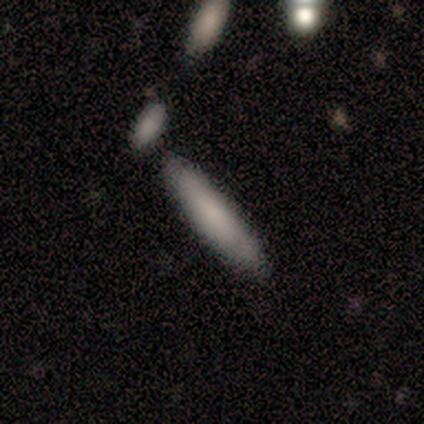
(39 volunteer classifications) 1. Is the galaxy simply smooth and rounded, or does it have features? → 69% smooth, 28% featured or disk, 3% star or artifact.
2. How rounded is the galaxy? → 85% cigar-shaped, 15% in between, 0% round.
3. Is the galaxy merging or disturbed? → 63% none, 18% minor disturbance, 13% merger, 0% major disturbance.